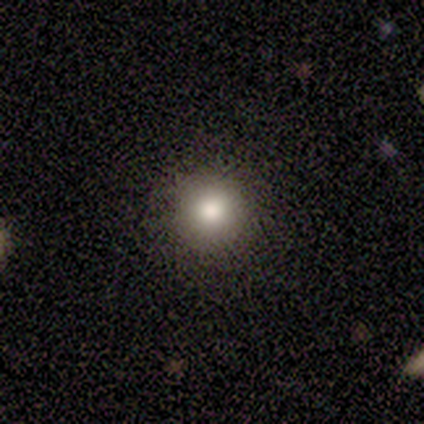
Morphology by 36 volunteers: Smooth or featured?
  - smooth: 69% *
  - featured or disk: 17%
  - star or artifact: 14%
How rounded?
  - round: 96% *
  - in between: 4%
  - cigar-shaped: 0%
Merging?
  - none: 94% *
  - minor disturbance: 3%
  - major disturbance: 3%
  - merger: 0%